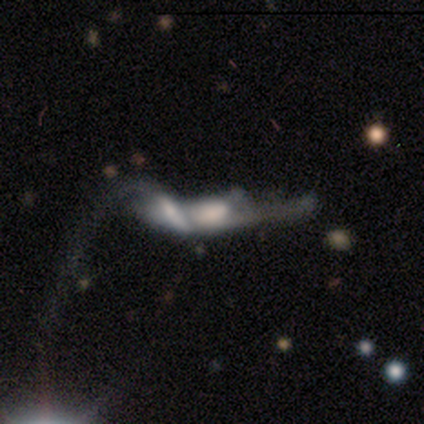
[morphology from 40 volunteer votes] Overall: featured or disk (68%). Edge-on disk: no (63%; yes 37%). Bar: no (76%). Spiral arms: no (65%; yes 35%). Bulge size: none (41%; large 29%). Merging: merger (65%; major disturbance 27%).